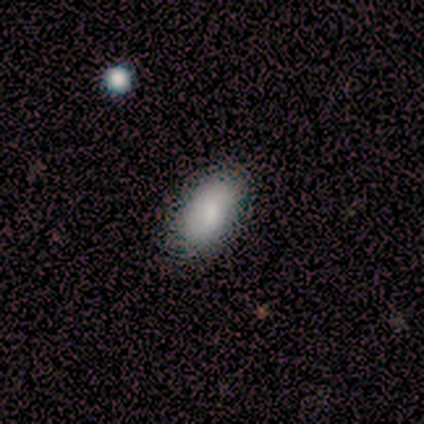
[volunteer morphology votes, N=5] Smooth or featured? 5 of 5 (100%) said smooth. How rounded? 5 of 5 (100%) said in between. Merging? 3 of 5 (60%) said minor disturbance.